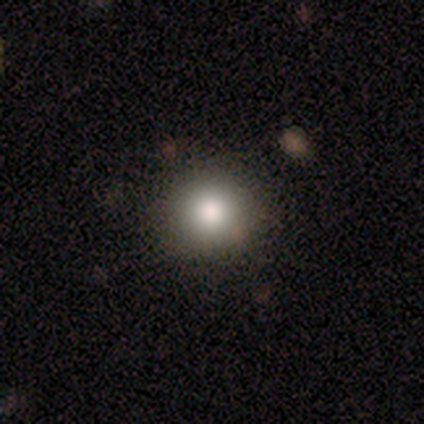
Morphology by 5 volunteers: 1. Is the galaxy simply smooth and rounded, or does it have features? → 100% smooth, 0% featured or disk, 0% star or artifact.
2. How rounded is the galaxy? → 80% round, 20% cigar-shaped, 0% in between.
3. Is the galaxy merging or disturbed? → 100% none, 0% minor disturbance, 0% major disturbance, 0% merger.